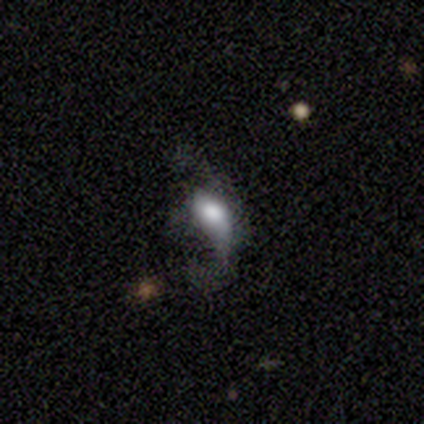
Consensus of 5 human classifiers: Smooth or featured? smooth (60%)
How rounded? in between (100%)
Merging? minor disturbance (50%, tied with major disturbance)